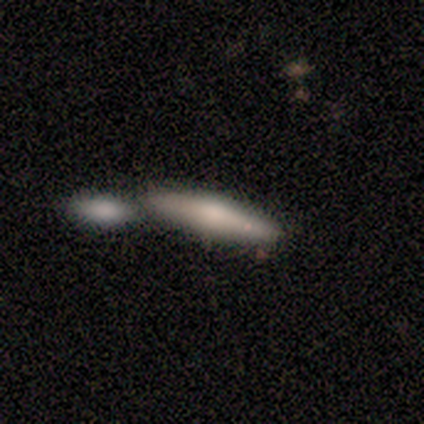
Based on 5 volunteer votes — Volunteers were most divided on "smooth or featured": smooth: 60%, featured or disk: 40%, star or artifact: 0%. More confident: merging — none (100%); how rounded — cigar-shaped (67%).